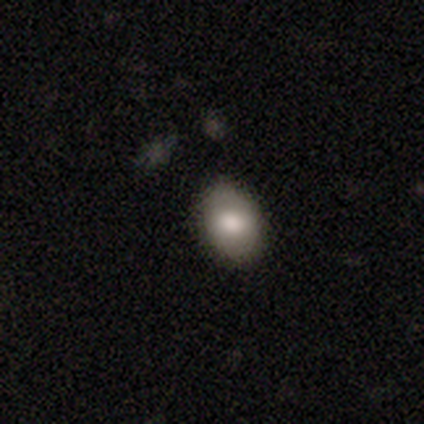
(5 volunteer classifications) smooth_or_featured: smooth (p=0.60) [alt: star or artifact p=0.40]
how_rounded: in between (p=0.67) [alt: round p=0.33]
merging: none (p=0.67) [alt: minor disturbance p=0.33]